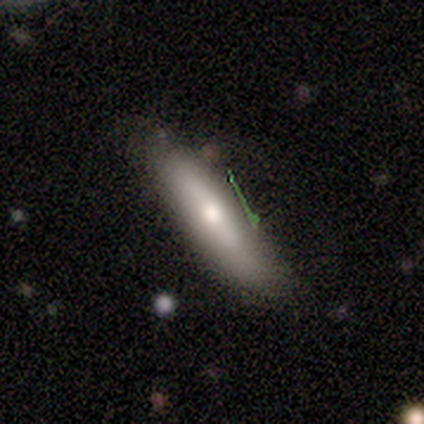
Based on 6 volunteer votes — Smooth or featured? 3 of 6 (50%, tied with featured or disk) said smooth. How rounded? 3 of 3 (100%) said cigar-shaped. Merging? 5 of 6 (83%) said none.